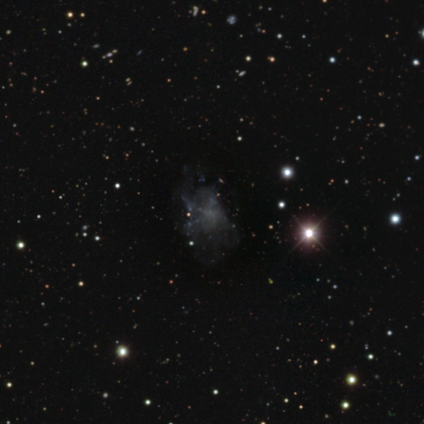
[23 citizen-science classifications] Overall: star or artifact (48%; featured or disk 39%).